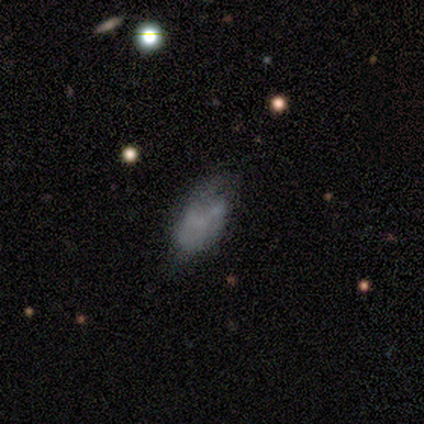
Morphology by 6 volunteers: Smooth or featured?
  - smooth: 50% * (tied)
  - featured or disk: 50% * (tied)
  - star or artifact: 0%
How rounded?
  - in between: 100% *
  - round: 0%
  - cigar-shaped: 0%
Merging?
  - minor disturbance: 50% *
  - major disturbance: 33%
  - none: 17%
  - merger: 0%